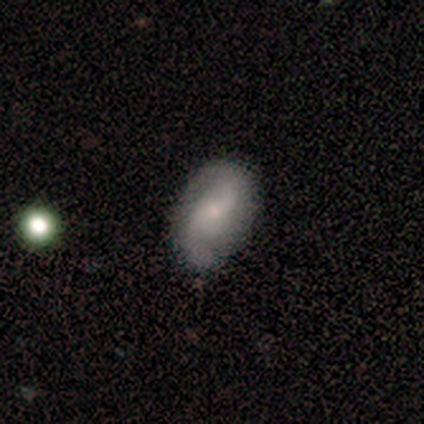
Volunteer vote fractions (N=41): This is likely a featured or disk galaxy (66%). It is clearly not viewed edge-on (96%). Bar: possibly weak (58%). Spiral arm pattern: clearly yes (96%). Spiral arm count: clearly 2 (96%). Spiral winding: likely loose (68%). Central bulge: likely small (69%). Merging: likely none (79%).